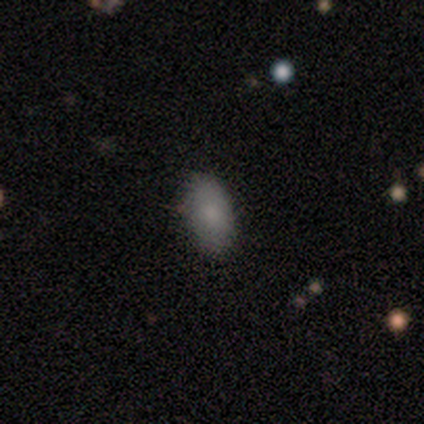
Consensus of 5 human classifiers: This appears to be a smooth galaxy with no disk features (100%) that is in between round and cigar-shaped (100%). Merging: none (80%).